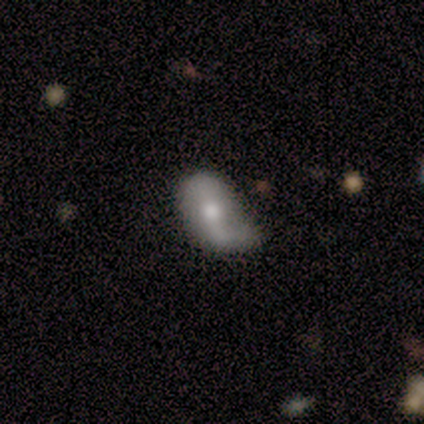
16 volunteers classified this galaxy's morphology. Q: Smooth or featured?
A: featured or disk (56%); runner-up: smooth (44%)
Q: Edge-on disk?
A: no (78%); runner-up: yes (22%)
Q: Bar?
A: no (57%); runner-up: strong (43%)
Q: Spiral arms?
A: no (57%); runner-up: yes (43%)
Q: Bulge size?
A: moderate (86%); runner-up: large (14%)
Q: Merging?
A: minor disturbance (44%); runner-up: none (38%)